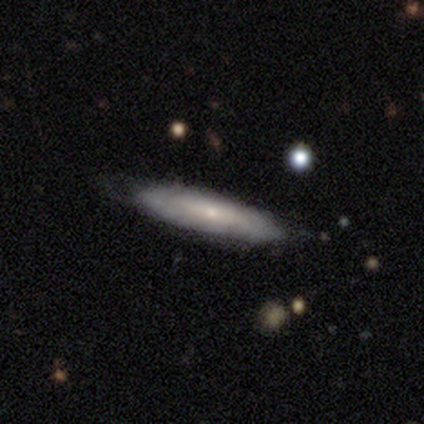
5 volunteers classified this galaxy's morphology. Overall: featured or disk (60%; smooth 40%). Edge-on disk: no (67%; yes 33%). Bar: no (100%). Spiral arms: no (100%). Bulge size: small (100%). Merging: none (60%; minor disturbance 40%).